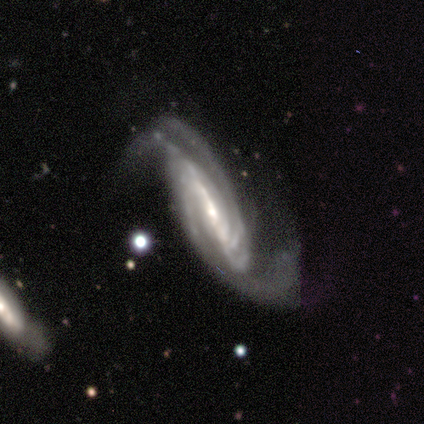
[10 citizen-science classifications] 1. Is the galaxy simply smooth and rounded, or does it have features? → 90% featured or disk, 10% star or artifact, 0% smooth.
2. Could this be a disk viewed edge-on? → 100% no, 0% yes.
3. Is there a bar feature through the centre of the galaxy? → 67% strong, 22% weak, 11% no.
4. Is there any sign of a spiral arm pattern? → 100% yes, 0% no.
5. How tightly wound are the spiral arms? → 56% medium, 33% tight, 11% loose.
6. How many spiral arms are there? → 67% 2, 11% 3, 11% 4, 11% can't tell, 0% 1, 0% more than 4.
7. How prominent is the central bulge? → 56% small, 44% moderate, 0% dominant, 0% large, 0% none.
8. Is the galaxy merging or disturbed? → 56% major disturbance, 22% none, 22% minor disturbance, 0% merger.